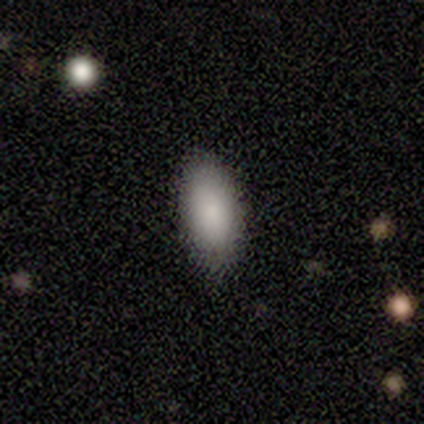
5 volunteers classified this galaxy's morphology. Q: Smooth or featured?
A: smooth (100%)
Q: How rounded?
A: in between (80%); runner-up: round (20%)
Q: Merging?
A: none (60%); runner-up: minor disturbance (20%)